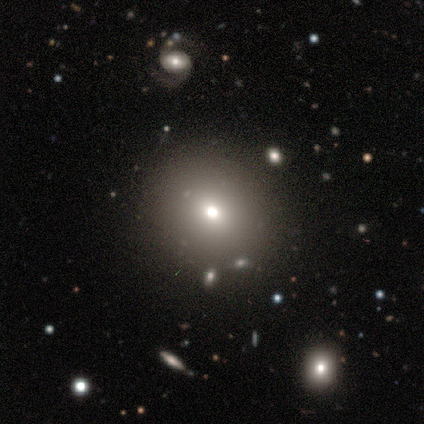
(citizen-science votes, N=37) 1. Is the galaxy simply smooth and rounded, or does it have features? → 65% smooth, 22% star or artifact, 14% featured or disk.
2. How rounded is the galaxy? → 88% round, 12% in between, 0% cigar-shaped.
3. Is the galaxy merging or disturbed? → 69% none, 21% minor disturbance, 7% merger, 3% major disturbance.